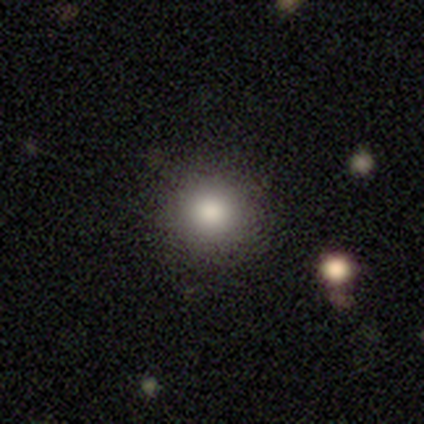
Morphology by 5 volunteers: This appears to be a smooth galaxy with no disk features (80%) that is round (100%). Merging: none (100%).